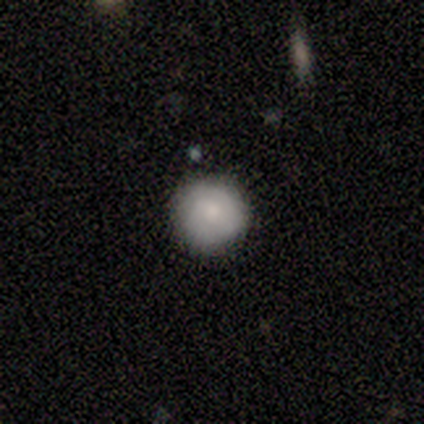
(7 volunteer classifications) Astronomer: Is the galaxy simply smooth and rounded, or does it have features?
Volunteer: smooth — 100%.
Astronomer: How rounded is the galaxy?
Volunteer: round — 86%.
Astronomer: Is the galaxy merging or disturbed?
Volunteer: none — 86%.